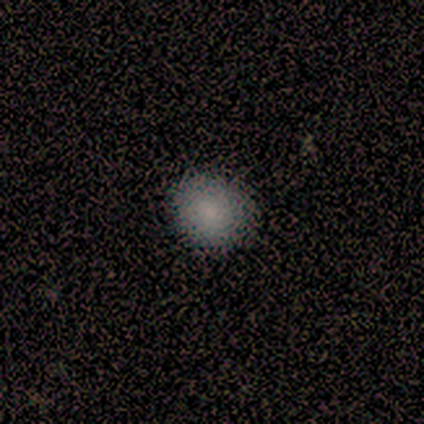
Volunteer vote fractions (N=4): Smooth or featured: smooth — 100%
How rounded: round — 100%
Merging: none — 75% (minor disturbance — 25%)